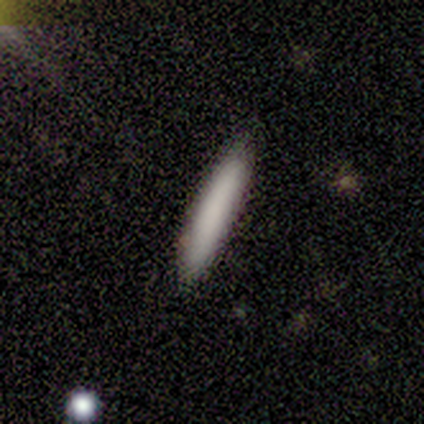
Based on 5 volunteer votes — smooth 100%, featured or disk 0%, star or artifact 0%. Down the decision tree: how rounded — cigar-shaped (100%); merging — none (80%).